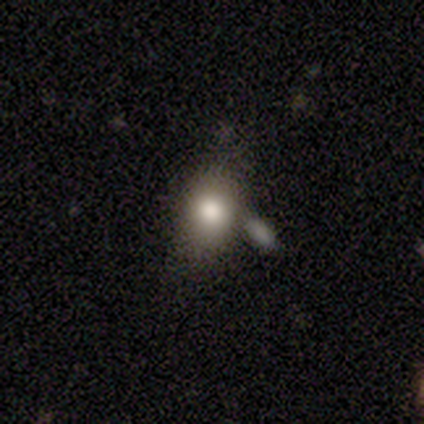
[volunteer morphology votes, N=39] smooth-or-featured: smooth: 79% | featured or disk: 13% | star or artifact: 8%
  how-rounded: in between: 65% | round: 23% | cigar-shaped: 13%
  merging: none: 47% | merger: 36% | minor disturbance: 8% | major disturbance: 8%